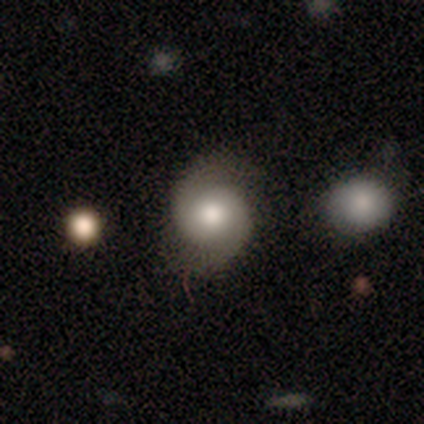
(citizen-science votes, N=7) A featured or disk galaxy (86%) with a weak bar (67%), 2 (100%) medium (50%) spiral arms (100%) and a moderate central bulge (83%).

Vote fractions:
- Smooth or featured? featured or disk: 86% / smooth: 14% / star or artifact: 0%
- Edge-on disk? no: 100% / yes: 0%
- Bar? weak: 67% / strong: 17% / no: 17%
- Spiral arms? yes: 100% / no: 0%
- Spiral winding? medium: 50% / loose: 33% / tight: 17%
- Spiral arm count? 2: 100% / 1: 0% / 3: 0% / 4: 0% / more than 4: 0% / can't tell: 0%
- Bulge size? moderate: 83% / small: 17% / dominant: 0% / large: 0% / none: 0%
- Merging? none: 100% / minor disturbance: 0% / major disturbance: 0% / merger: 0%